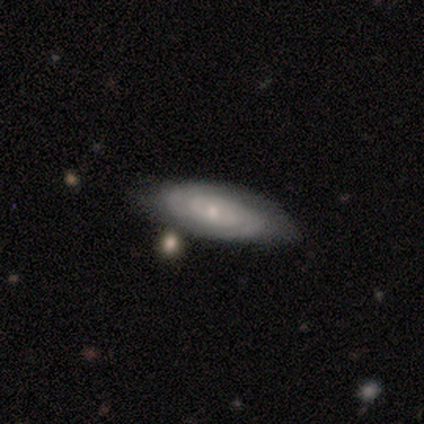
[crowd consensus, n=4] Smooth or featured: featured or disk — 75% (smooth — 25%)
Edge-on disk: no — 100%
Bar: no — 100%
Spiral arms: yes — 100%
Spiral winding: tight — 100%
Spiral arm count: 2 — 33% (tied with 4 — 33%; can't tell — 33%)
Bulge size: moderate — 67% (small — 33%)
Merging: none — 100%